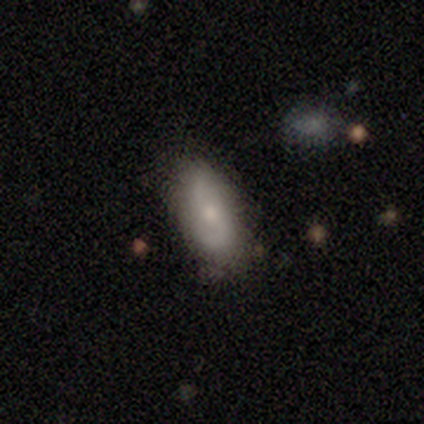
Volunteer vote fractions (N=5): Smooth or featured?
  - featured or disk: 80% *
  - smooth: 20%
  - star or artifact: 0%
Edge-on disk?
  - no: 75% *
  - yes: 25%
Bar?
  - no: 67% *
  - weak: 33%
  - strong: 0%
Spiral arms?
  - yes: 67% *
  - no: 33%
Spiral winding?
  - medium: 100% *
  - tight: 0%
  - loose: 0%
Spiral arm count?
  - 2: 100% *
  - 1: 0%
  - 3: 0%
  - 4: 0%
  - more than 4: 0%
  - can't tell: 0%
Bulge size?
  - large: 33% * (tied)
  - moderate: 33% * (tied)
  - small: 33% * (tied)
  - dominant: 0%
  - none: 0%
Merging?
  - none: 60% *
  - minor disturbance: 40%
  - major disturbance: 0%
  - merger: 0%